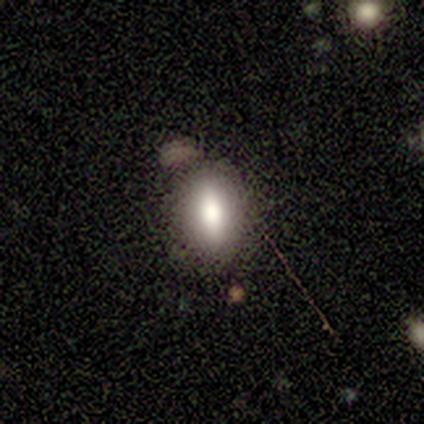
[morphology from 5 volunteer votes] Smooth or featured? 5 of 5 (100%) said smooth. How rounded? 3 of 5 (60%) said in between. Merging? 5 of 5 (100%) said none.